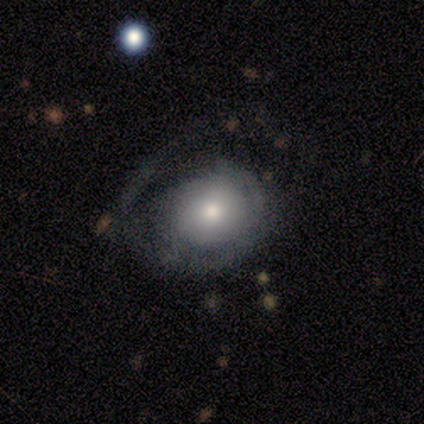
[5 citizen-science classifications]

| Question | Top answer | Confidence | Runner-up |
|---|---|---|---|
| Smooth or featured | featured or disk | 60% | smooth (40%) |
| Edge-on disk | no | 100% | — |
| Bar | no | 100% | — |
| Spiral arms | yes | 100% | — |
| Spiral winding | tight | 67% | medium (33%) |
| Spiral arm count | can't tell | 100% | — |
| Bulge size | moderate | 100% | — |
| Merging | none | 60% | minor disturbance (20%) |